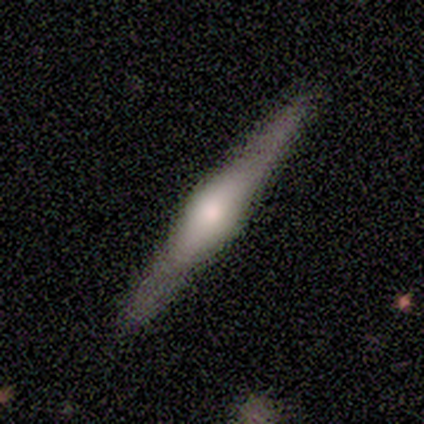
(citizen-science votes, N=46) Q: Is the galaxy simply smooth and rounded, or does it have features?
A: featured or disk — 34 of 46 (74%).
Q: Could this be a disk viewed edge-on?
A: yes — 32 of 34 (94%).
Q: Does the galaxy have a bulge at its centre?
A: rounded — 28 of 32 (88%).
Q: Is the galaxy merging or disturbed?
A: none — 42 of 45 (93%).